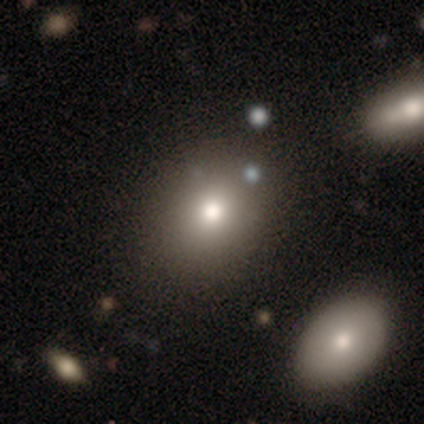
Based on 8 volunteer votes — Overall: smooth (88%). How rounded: in between (71%). Merging: none (88%).